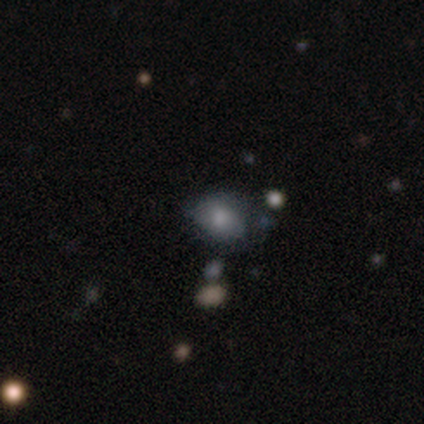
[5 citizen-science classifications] Morphology: type=smooth (80%); roundness=in between (75%); merging=minor disturbance (60%).